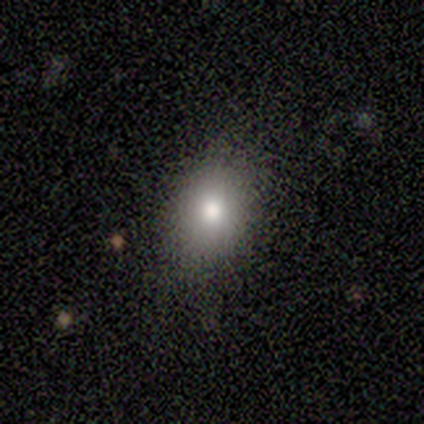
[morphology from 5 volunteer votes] A smooth galaxy with no disk features (80%) that is round (50%, tied with in between). Merging: none (60%).